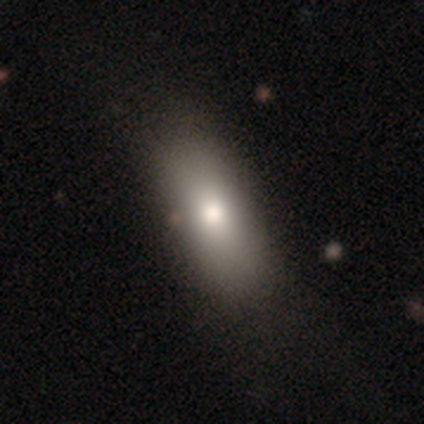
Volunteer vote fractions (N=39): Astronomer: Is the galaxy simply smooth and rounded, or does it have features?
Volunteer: smooth — 85%.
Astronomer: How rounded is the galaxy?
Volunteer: in between — 79%.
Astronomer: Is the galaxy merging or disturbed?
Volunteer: none — 57%.